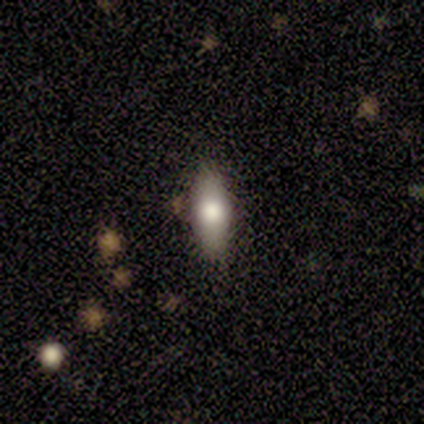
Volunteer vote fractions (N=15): Smooth or featured?
  - smooth: 60% *
  - featured or disk: 33%
  - star or artifact: 7%
How rounded?
  - in between: 78% *
  - cigar-shaped: 22%
  - round: 0%
Merging?
  - none: 79% *
  - minor disturbance: 14%
  - merger: 7%
  - major disturbance: 0%